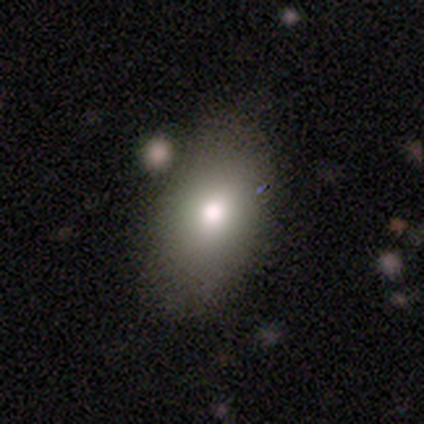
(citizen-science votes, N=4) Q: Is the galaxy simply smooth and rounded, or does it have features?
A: smooth — 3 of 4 (75%).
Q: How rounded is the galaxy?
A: round — 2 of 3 (67%).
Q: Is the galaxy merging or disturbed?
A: none — 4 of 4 (100%).